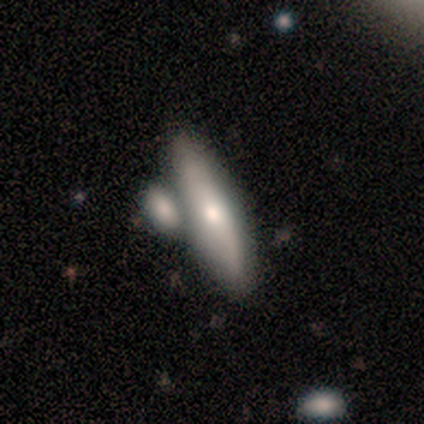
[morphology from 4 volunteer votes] A featured or disk galaxy (75%) viewed edge-on (100%) with a rounded central bulge (100%).

Vote fractions:
- Smooth or featured? featured or disk: 75% / smooth: 25% / star or artifact: 0%
- Edge-on disk? yes: 100% / no: 0%
- Edge-on bulge? rounded: 100% / boxy: 0% / none: 0%
- Merging? merger: 75% / none: 25% / minor disturbance: 0% / major disturbance: 0%